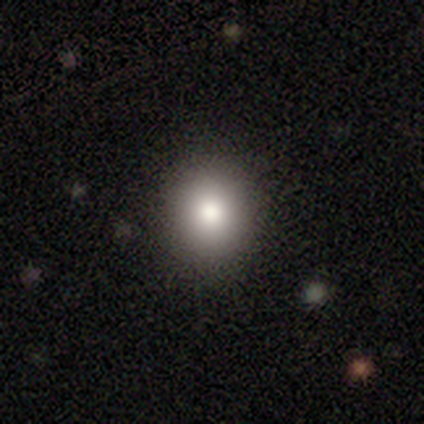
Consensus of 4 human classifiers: Smooth or featured? smooth (100%)
How rounded? round (50%, tied with in between)
Merging? none (100%)